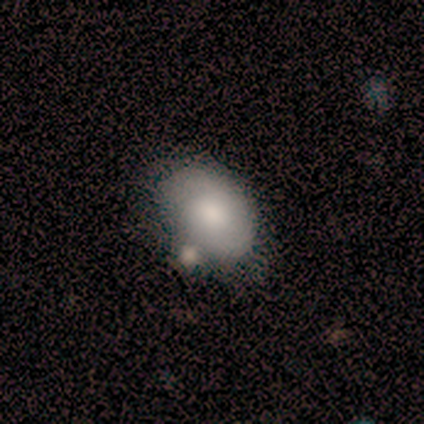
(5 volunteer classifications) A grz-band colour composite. It shows a smooth galaxy with no disk features (80%) that is in between round and cigar-shaped (100%). Merging: none (60%).